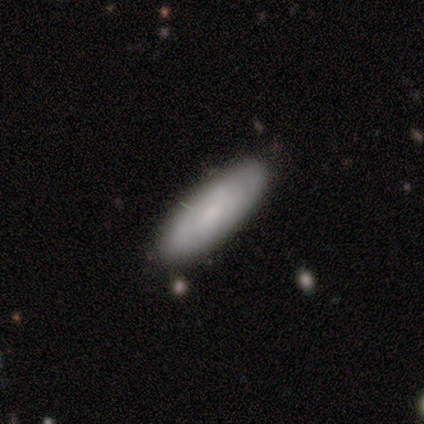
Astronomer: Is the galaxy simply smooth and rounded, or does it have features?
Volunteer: smooth — 80%.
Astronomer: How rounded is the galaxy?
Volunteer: in between — 75%.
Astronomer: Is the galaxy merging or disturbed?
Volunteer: none — 80%.